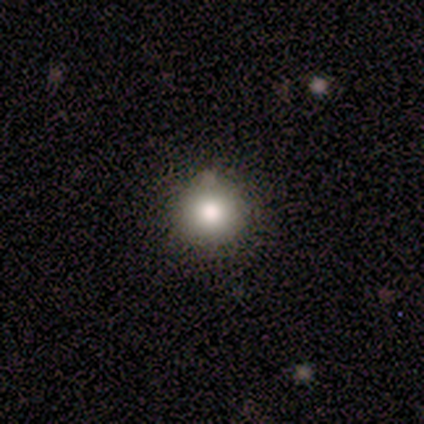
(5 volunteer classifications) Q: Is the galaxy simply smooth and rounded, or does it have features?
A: smooth — 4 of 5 (80%).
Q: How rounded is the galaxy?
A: round — 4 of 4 (100%).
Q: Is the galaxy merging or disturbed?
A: none — 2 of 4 (50%, tied with minor disturbance).